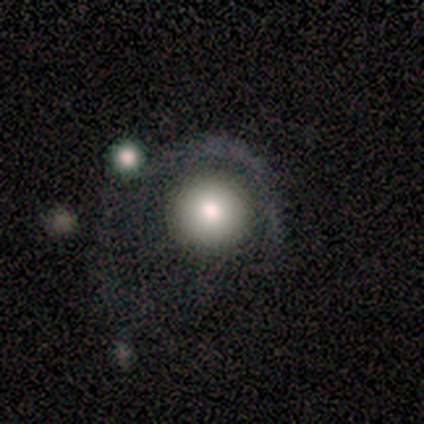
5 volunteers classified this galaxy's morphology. This is likely a smooth galaxy (60%). How rounded: clearly round (100%). Merging: likely none (60%).